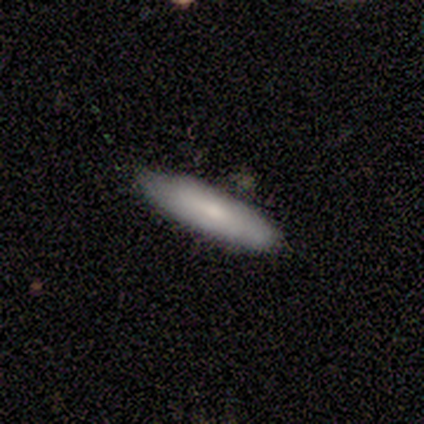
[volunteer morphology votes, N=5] smooth-or-featured: smooth: 100% | featured or disk: 0% | star or artifact: 0%
  how-rounded: cigar-shaped: 60% | in between: 40% | round: 0%
  merging: none: 100% | minor disturbance: 0% | major disturbance: 0% | merger: 0%